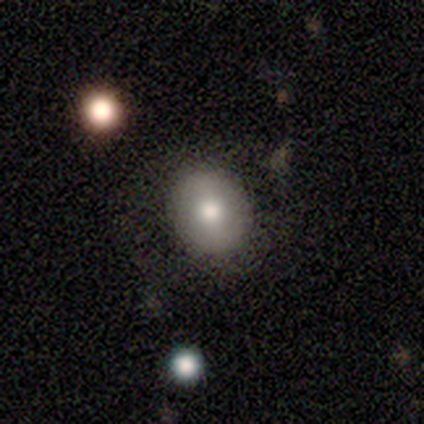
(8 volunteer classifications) smooth 75%, featured or disk 12%, star or artifact 12%. Down the decision tree: how rounded — round (67%); merging — none (57%).